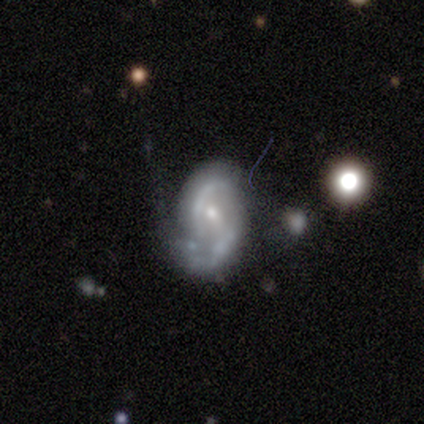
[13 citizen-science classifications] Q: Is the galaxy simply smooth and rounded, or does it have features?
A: featured or disk — 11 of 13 (85%).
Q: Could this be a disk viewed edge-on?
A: no — 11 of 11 (100%).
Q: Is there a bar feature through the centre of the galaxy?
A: no — 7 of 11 (64%).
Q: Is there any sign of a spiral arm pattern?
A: yes — 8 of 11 (73%).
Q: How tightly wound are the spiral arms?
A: medium — 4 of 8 (50%).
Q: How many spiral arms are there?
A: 2 — 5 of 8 (62%).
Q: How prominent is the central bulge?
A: small — 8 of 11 (73%).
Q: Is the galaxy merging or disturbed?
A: major disturbance — 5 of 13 (38%).